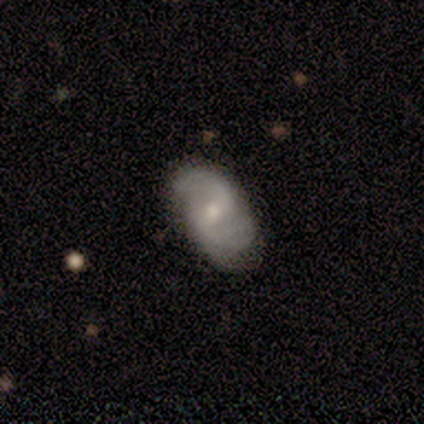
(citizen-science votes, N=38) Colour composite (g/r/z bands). It shows a featured or disk galaxy (74%) with a weak bar (63%), 2 (96%) loose (52%) spiral arms (100%) and a moderate central bulge (52%). Merging: none (62%).